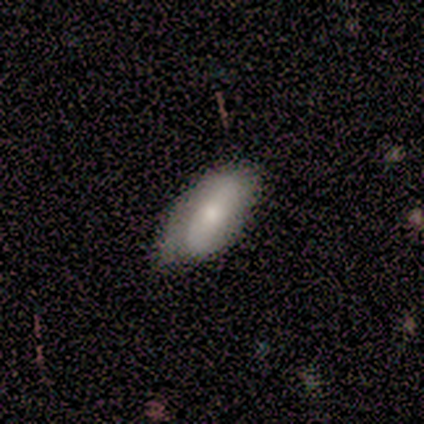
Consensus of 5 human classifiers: Smooth or featured: smooth — 60% (featured or disk — 20%)
How rounded: in between — 100%
Merging: major disturbance — 50% (none — 25%)